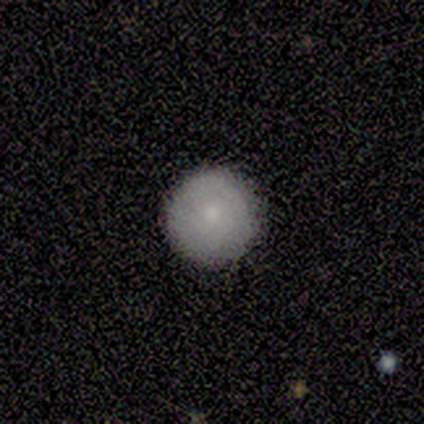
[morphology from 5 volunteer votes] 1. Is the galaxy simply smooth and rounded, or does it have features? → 60% smooth, 20% featured or disk, 20% star or artifact.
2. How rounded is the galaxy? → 100% round, 0% in between, 0% cigar-shaped.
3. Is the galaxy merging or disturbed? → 75% none, 25% minor disturbance, 0% major disturbance, 0% merger.